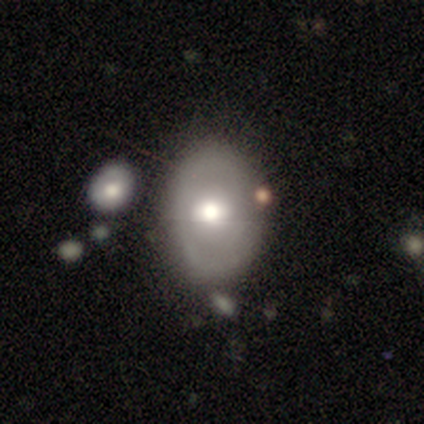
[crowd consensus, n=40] smooth_or_featured: smooth (p=0.65) [alt: featured or disk p=0.33]
how_rounded: in between (p=0.62) [alt: round p=0.35]
merging: none (p=0.59) [alt: merger p=0.21]